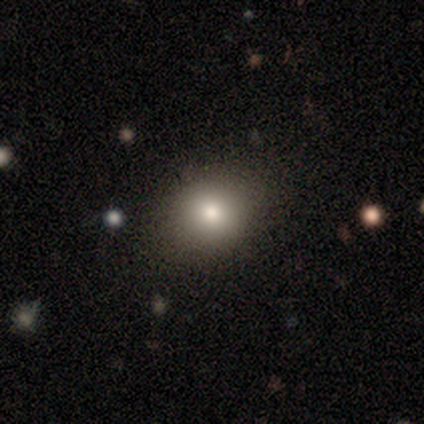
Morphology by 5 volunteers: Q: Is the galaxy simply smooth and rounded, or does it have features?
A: smooth — 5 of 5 (100%).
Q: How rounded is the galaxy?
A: in between — 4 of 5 (80%).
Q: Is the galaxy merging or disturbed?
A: none — 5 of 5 (100%).